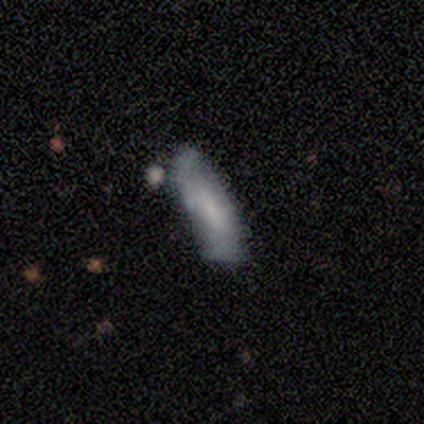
smooth_or_featured: smooth (p=0.50) [tied with: featured or disk p=0.50]
how_rounded: in between (p=1.00)
merging: none (p=0.50) [alt: minor disturbance p=0.25]